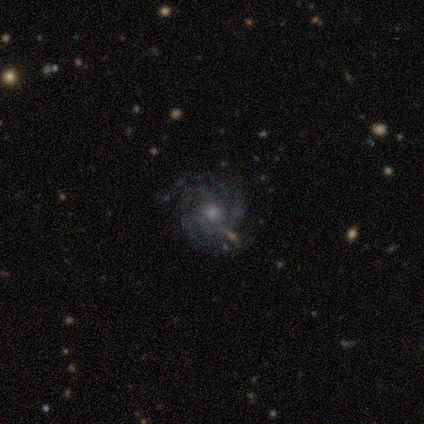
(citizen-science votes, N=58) Overall: featured or disk (86%). Edge-on disk: no (98%). Bar: no (78%). Spiral arms: yes (96%). Spiral arm count: can't tell (36%; 4 26%). Spiral winding: tight (49%; medium 36%). Bulge size: small (51%; moderate 45%). Merging: none (75%).